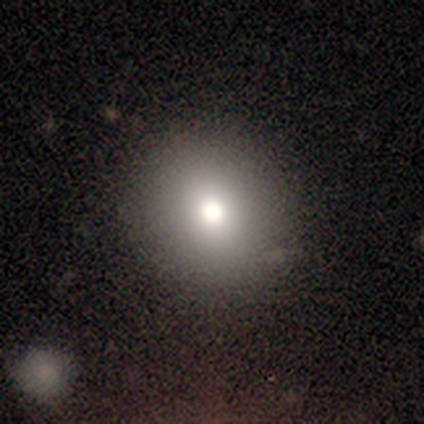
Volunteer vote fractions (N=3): A smooth galaxy with no disk features (100%) that is round (100%). Merging: none (100%).